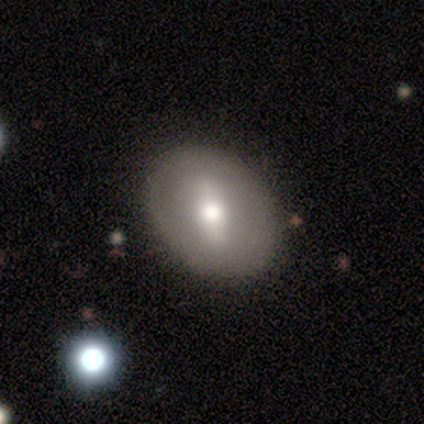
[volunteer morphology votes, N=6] Volunteers were most divided on "bar" (2-way tie): strong: 50%, weak: 50%, no: 0%. More confident: edge-on disk — no (100%); spiral arms — no (100%); merging — none (100%); bulge size — moderate (75%); smooth or featured — featured or disk (67%).